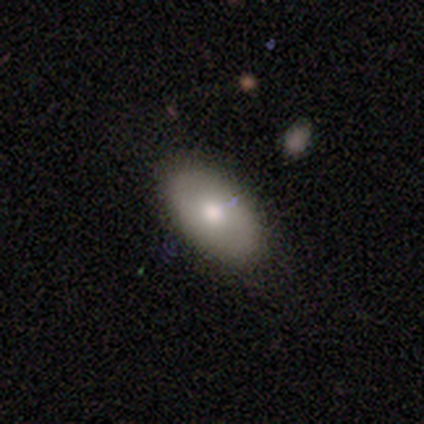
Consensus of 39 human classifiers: Smooth or featured? smooth (74%)
How rounded? in between (93%)
Merging? none (69%)